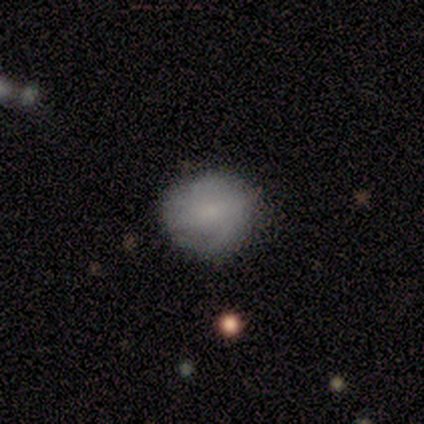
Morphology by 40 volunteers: smooth-or-featured: smooth: 50% (tied) | featured or disk: 50% (tied) | star or artifact: 0%
  how-rounded: round: 85% | in between: 15% | cigar-shaped: 0%
  merging: none: 70% | minor disturbance: 8% | major disturbance: 0% | merger: 0%